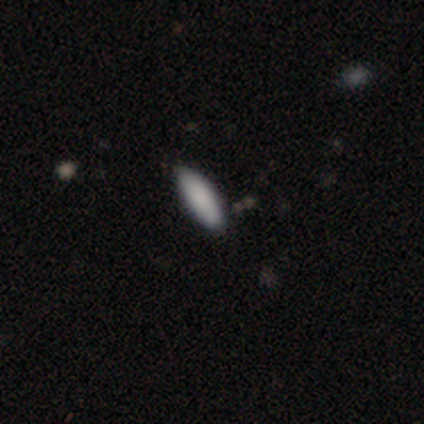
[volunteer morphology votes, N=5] Smooth or featured? smooth (80%)
How rounded? in between (75%)
Merging? none (100%)